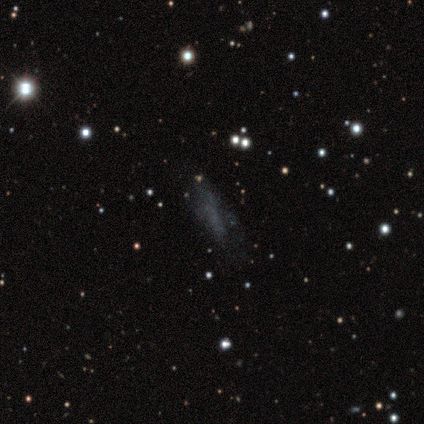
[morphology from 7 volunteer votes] Overall: smooth (71%). How rounded: cigar-shaped (80%). Merging: none (67%).